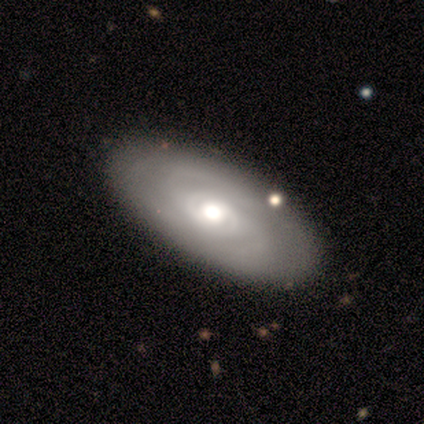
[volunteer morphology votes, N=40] featured or disk 68%, smooth 30%, star or artifact 2%. Down the decision tree: edge-on disk — no (93%); bar — no (80%); spiral arms — yes (72%); spiral arm count — 2 (50%); spiral winding — tight (61%); bulge size — moderate (52%); merging — none (79%).